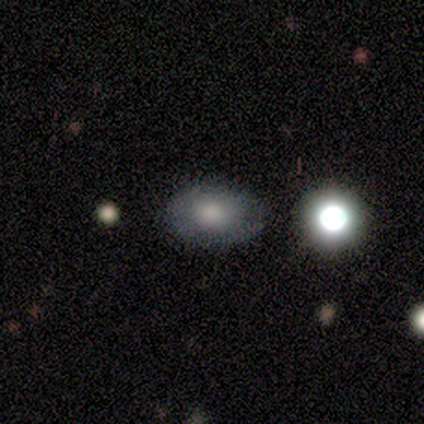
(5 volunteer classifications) smooth_or_featured: smooth (p=0.80) [alt: featured or disk p=0.20]
how_rounded: in between (p=1.00)
merging: none (p=0.60) [alt: minor disturbance p=0.40]